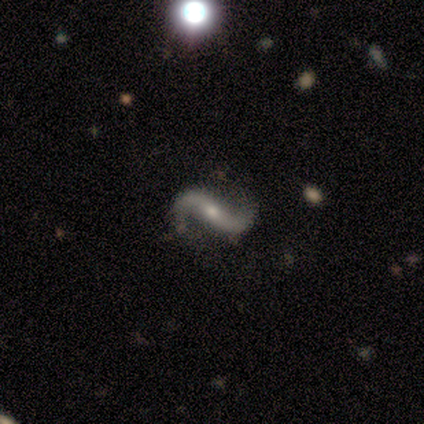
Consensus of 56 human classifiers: Smooth or featured: featured or disk — 98% (star or artifact — 2%)
Edge-on disk: no — 95% (yes — 5%)
Bar: strong — 42% (no — 35%)
Spiral arms: yes — 94% (no — 6%)
Spiral winding: loose — 90% (medium — 10%)
Spiral arm count: 2 — 96% (1 — 4%)
Bulge size: small — 56% (moderate — 38%)
Merging: none — 80% (minor disturbance — 13%)